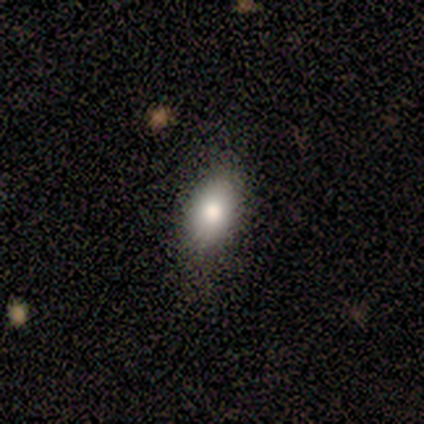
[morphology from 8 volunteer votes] Smooth or featured? 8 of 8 (100%) said smooth. How rounded? 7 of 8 (88%) said in between. Merging? 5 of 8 (62%) said none.